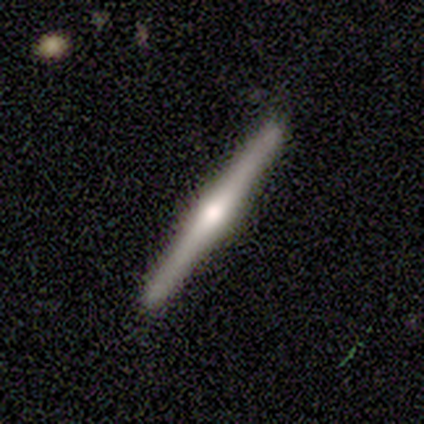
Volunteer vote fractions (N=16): featured or disk 62%, smooth 38%, star or artifact 0%. Down the decision tree: edge-on disk — yes (100%); edge-on bulge — rounded (90%); merging — none (94%).